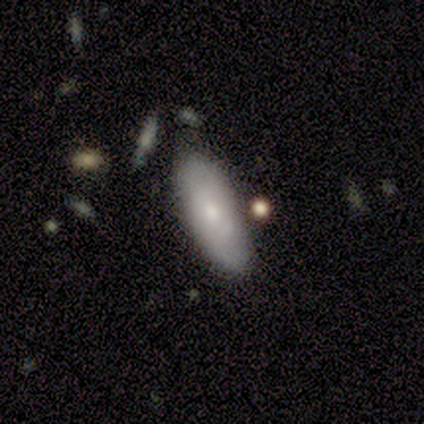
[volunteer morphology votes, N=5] Smooth or featured? 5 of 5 (100%) said smooth. How rounded? 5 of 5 (100%) said in between. Merging? 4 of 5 (80%) said none.